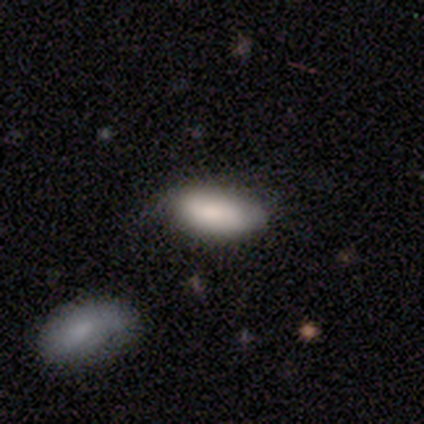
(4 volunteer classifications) Overall: smooth (75%). How rounded: in between (67%; round 33%). Merging: none (75%).